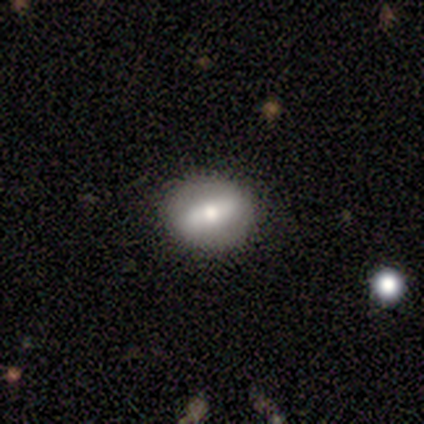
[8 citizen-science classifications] Smooth or featured? smooth (75%)
How rounded? round (67%)
Merging? none (57%)